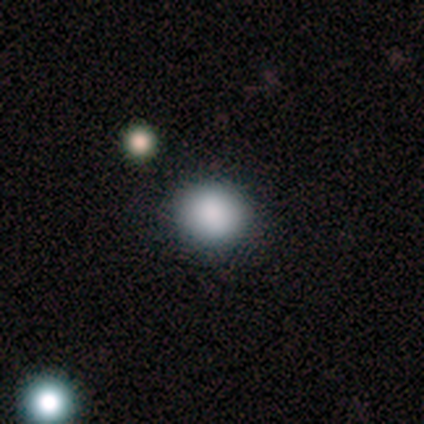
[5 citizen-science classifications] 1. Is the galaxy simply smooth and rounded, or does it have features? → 80% smooth, 20% star or artifact, 0% featured or disk.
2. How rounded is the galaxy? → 75% round, 25% in between, 0% cigar-shaped.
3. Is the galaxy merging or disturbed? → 100% none, 0% minor disturbance, 0% major disturbance, 0% merger.